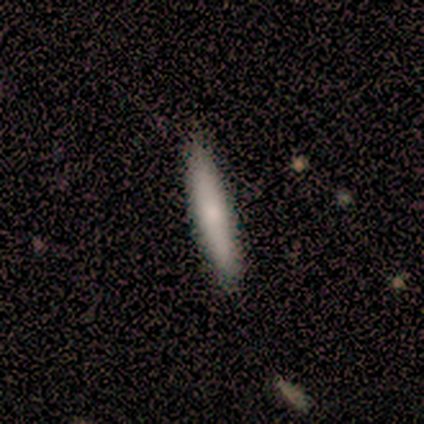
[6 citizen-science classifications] Smooth or featured? 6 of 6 (100%) said smooth. How rounded? 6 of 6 (100%) said cigar-shaped. Merging? 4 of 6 (67%) said none.